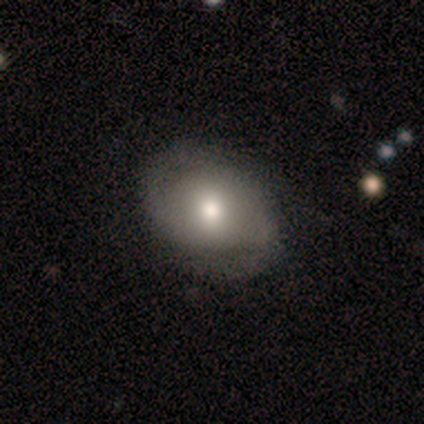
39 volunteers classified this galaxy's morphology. Smooth or featured?
  - featured or disk: 56% *
  - smooth: 44%
  - star or artifact: 0%
Edge-on disk?
  - no: 91% *
  - yes: 9%
Bar?
  - no: 65% *
  - weak: 20%
  - strong: 15%
Spiral arms?
  - yes: 75% *
  - no: 25%
Spiral winding?
  - tight: 53% *
  - medium: 27%
  - loose: 20%
Spiral arm count?
  - 2: 93% *
  - can't tell: 7%
  - 1: 0%
  - 3: 0%
  - 4: 0%
  - more than 4: 0%
Bulge size?
  - moderate: 65% *
  - dominant: 15%
  - large: 15%
  - small: 5%
  - none: 0%
Merging?
  - none: 54% *
  - minor disturbance: 15%
  - major disturbance: 8%
  - merger: 0%